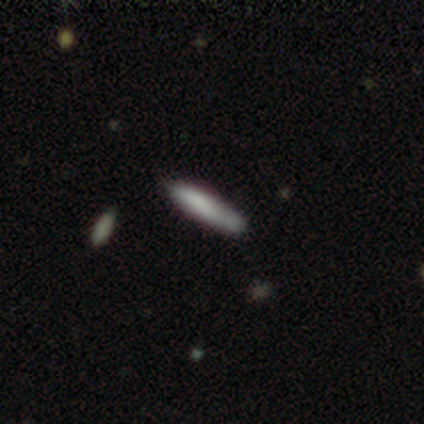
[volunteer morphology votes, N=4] Smooth or featured: smooth — 75% (featured or disk — 25%)
How rounded: cigar-shaped — 100%
Merging: none — 50% (tied with major disturbance — 50%)